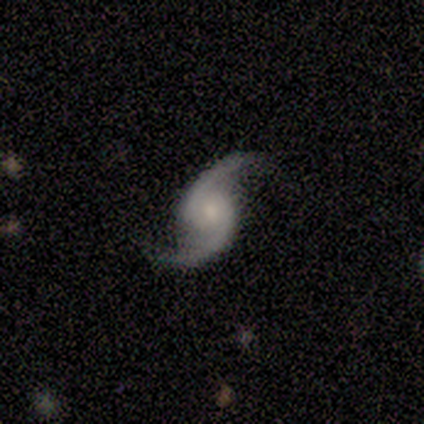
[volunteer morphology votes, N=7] Volunteers were most divided on "spiral winding": medium: 43%, tight: 29%, loose: 29%. More confident: smooth or featured — featured or disk (100%); edge-on disk — no (100%); spiral arms — yes (100%); spiral arm count — 2 (100%); merging — none (86%); bulge size — moderate (57%); bar — no (57%).